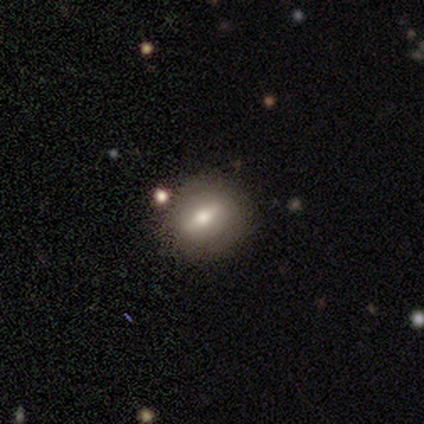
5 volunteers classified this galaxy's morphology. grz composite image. It shows a smooth galaxy with no disk features (40%, tied with featured or disk) that is round (50%, tied with in between). Merging: none (75%).